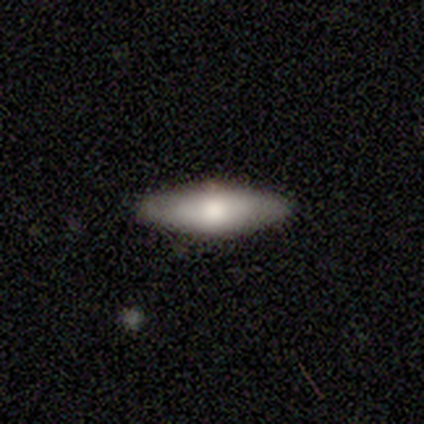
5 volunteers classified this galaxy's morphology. Smooth or featured? smooth (80%)
How rounded? in between (75%)
Merging? none (100%)